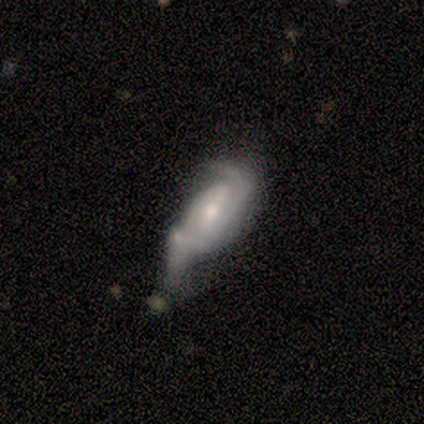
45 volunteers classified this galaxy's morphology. Overall: featured or disk (76%). Edge-on disk: no (97%). Bar: no (61%; weak 27%). Spiral arms: yes (88%). Spiral arm count: 2 (55%; can't tell 24%). Spiral winding: tight (52%; medium 41%). Bulge size: moderate (55%; small 39%). Merging: major disturbance (35%; minor disturbance 28%).